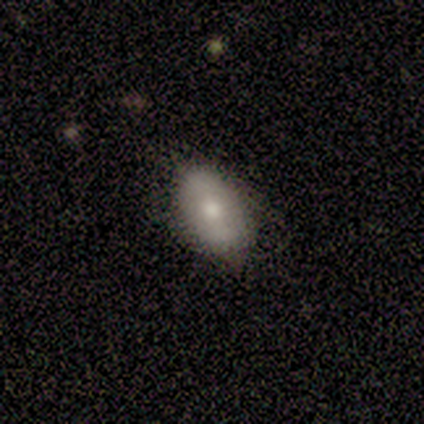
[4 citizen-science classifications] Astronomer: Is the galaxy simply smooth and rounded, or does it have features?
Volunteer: smooth — 100%.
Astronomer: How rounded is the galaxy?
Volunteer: in between — 100%.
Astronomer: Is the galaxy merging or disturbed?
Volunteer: none — 50%, tied with minor disturbance at 50%.